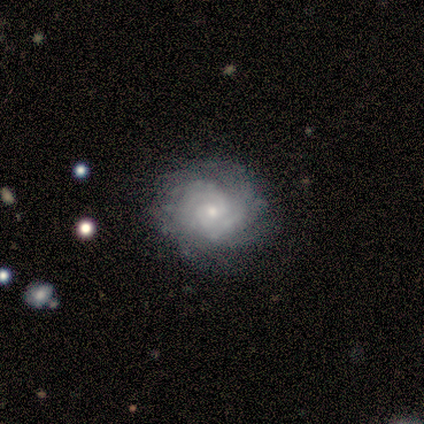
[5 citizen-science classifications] Volunteers were most divided on "merging": minor disturbance: 60%, none: 40%, major disturbance: 0%, merger: 0%. More confident: edge-on disk — no (100%); bar — no (100%); spiral arms — yes (100%); smooth or featured — featured or disk (80%); spiral winding — tight (75%); spiral arm count — 2 (75%); bulge size — small (50%).